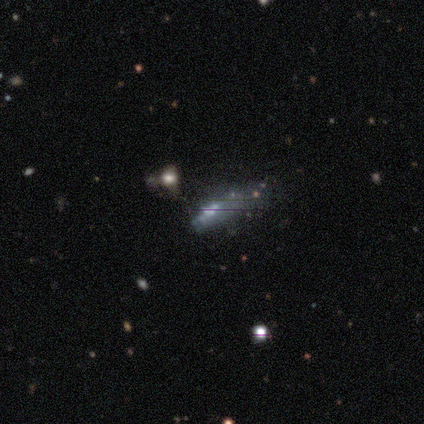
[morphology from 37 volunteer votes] Overall: featured or disk (41%; star or artifact 32%). Edge-on disk: no (93%). Bar: no (86%). Spiral arms: no (100%). Bulge size: small (43%; none 36%). Merging: none (32%; minor disturbance 28%).